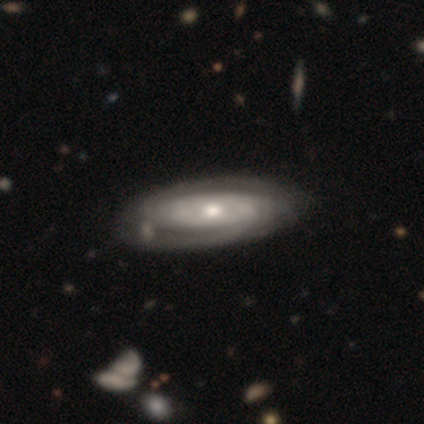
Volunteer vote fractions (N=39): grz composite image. It shows a featured or disk galaxy (74%) with no bar (75%), 2 (48%) tight (74%) spiral arms (96%) and a moderate central bulge (62%). Merging: none (47%).